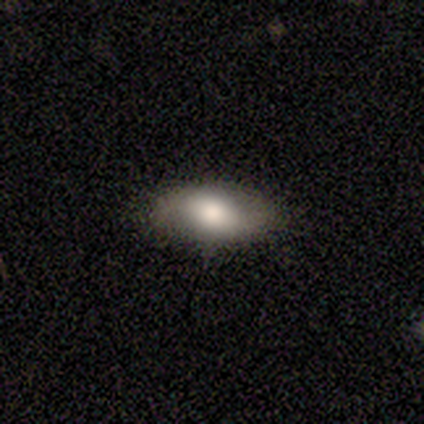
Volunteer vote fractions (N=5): smooth 60%, featured or disk 20%, star or artifact 20%. Down the decision tree: how rounded — in between (100%); merging — none (100%).